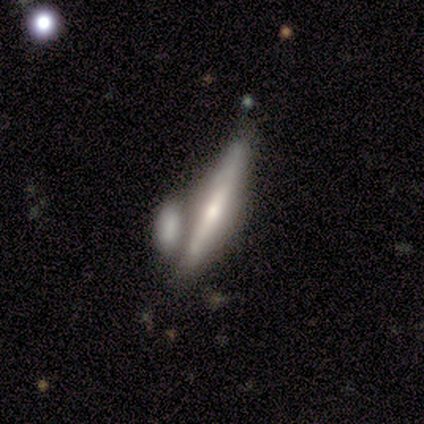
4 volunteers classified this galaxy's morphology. This appears to be a featured or disk galaxy (75%) viewed edge-on (67%) with a rounded central bulge (100%). Merging: merger (75%).